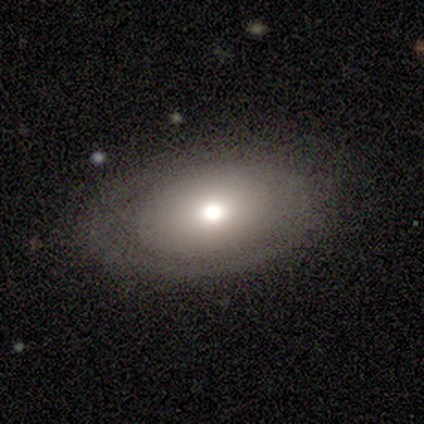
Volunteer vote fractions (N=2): smooth 50% (tied), featured or disk 50% (tied), star or artifact 0%. Down the decision tree: how rounded — round (100%); merging — none (100%).